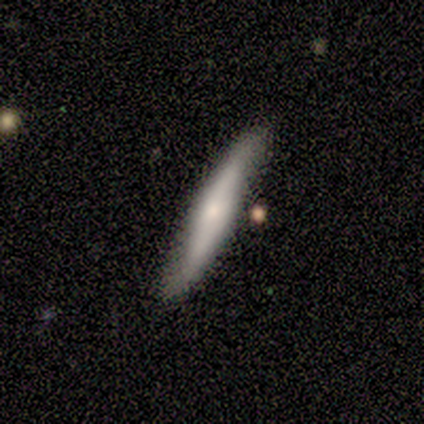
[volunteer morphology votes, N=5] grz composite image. It shows a smooth galaxy with no disk features (60%) that is cigar-shaped (100%). Merging: none (80%).